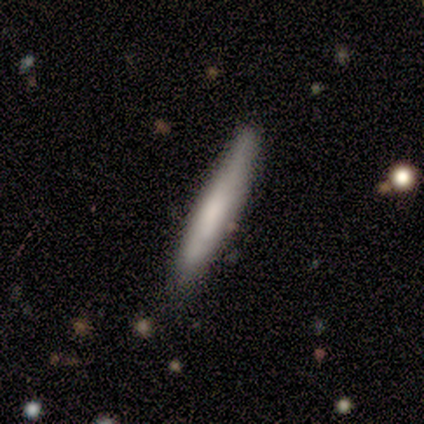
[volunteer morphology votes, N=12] Smooth or featured? 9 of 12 (75%) said smooth. How rounded? 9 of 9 (100%) said cigar-shaped. Merging? 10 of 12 (83%) said none.